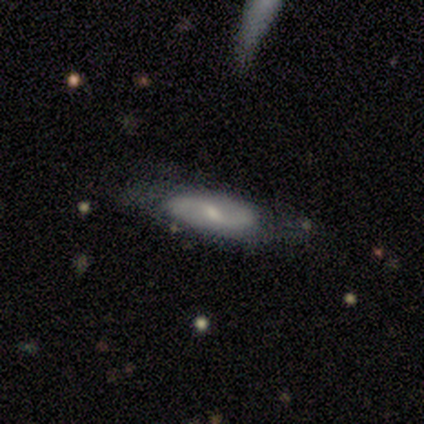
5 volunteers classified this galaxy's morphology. A featured or disk galaxy (100%) with a weak bar (50%), 2 (100%) loose (67%) spiral arms (75%) and a moderate central bulge (50%, tied with small). Merging: none (80%).